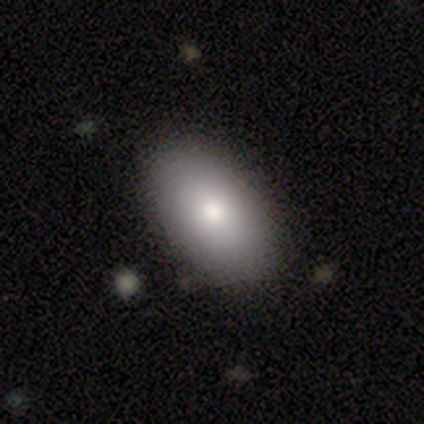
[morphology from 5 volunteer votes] Q: Smooth or featured?
A: smooth (80%); runner-up: star or artifact (20%)
Q: How rounded?
A: in between (100%)
Q: Merging?
A: none (100%)